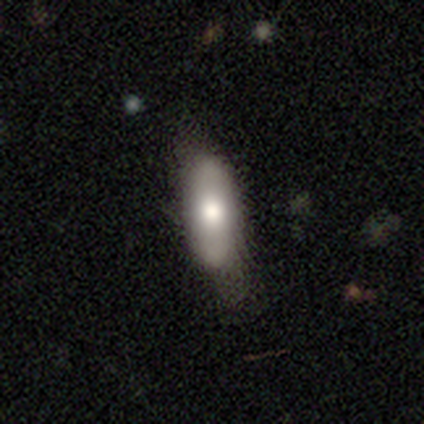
A smooth galaxy with no disk features (68%) that is in between round and cigar-shaped (68%).

Vote fractions:
- Smooth or featured? smooth: 68% / featured or disk: 22% / star or artifact: 11%
- How rounded? in between: 68% / cigar-shaped: 28% / round: 4%
- Merging? none: 55% / minor disturbance: 24% / major disturbance: 18% / merger: 3%